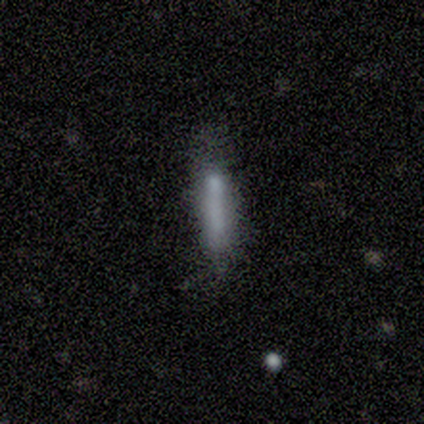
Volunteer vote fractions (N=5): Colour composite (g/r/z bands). It shows a smooth galaxy with no disk features (100%) that is cigar-shaped (100%). Merging: minor disturbance (80%).